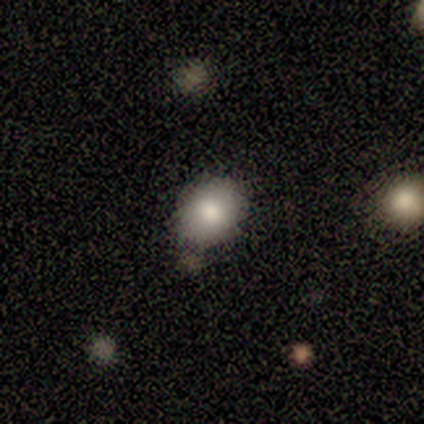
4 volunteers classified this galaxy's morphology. Smooth or featured?
  - smooth: 100% *
  - featured or disk: 0%
  - star or artifact: 0%
How rounded?
  - round: 50% * (tied)
  - in between: 50% * (tied)
  - cigar-shaped: 0%
Merging?
  - none: 50% * (tied)
  - minor disturbance: 50% * (tied)
  - major disturbance: 0%
  - merger: 0%